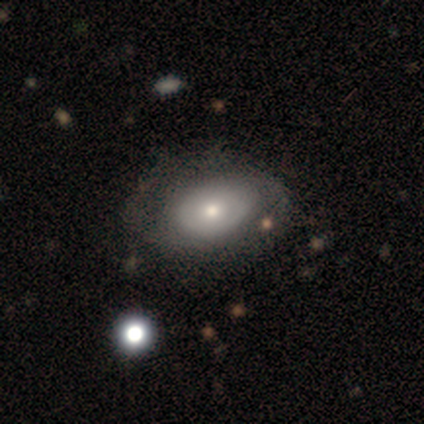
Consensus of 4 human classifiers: Volunteers were most divided on "spiral winding" (2-way tie): tight: 50%, medium: 50%, loose: 0%; "spiral arm count" (2-way tie): 2: 50%, can't tell: 50%, 1: 0%, 3: 0%, 4: 0%, more than 4: 0%; "merging" (3-way tie): none: 33%, minor disturbance: 33%, major disturbance: 33%, merger: 0%. More confident: edge-on disk — no (100%); bar — no (100%); spiral arms — yes (100%); bulge size — moderate (100%); smooth or featured — featured or disk (50%).